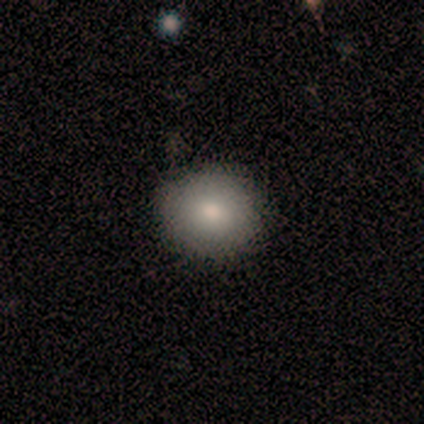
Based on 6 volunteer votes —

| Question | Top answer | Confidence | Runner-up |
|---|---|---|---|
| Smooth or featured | smooth | 83% | featured or disk (17%) |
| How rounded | round | 60% | in between (40%) |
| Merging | none | 67% | minor disturbance (33%) |